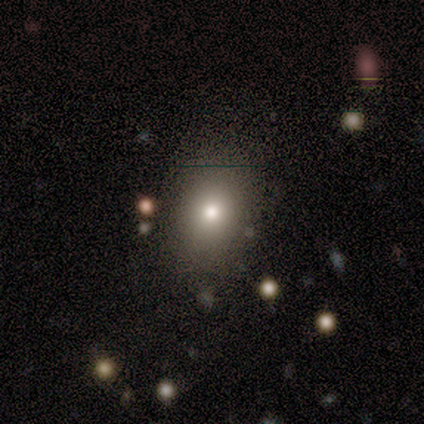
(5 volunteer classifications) Smooth or featured?
  - smooth: 80% *
  - star or artifact: 20%
  - featured or disk: 0%
How rounded?
  - round: 50% * (tied)
  - in between: 50% * (tied)
  - cigar-shaped: 0%
Merging?
  - none: 100% *
  - minor disturbance: 0%
  - major disturbance: 0%
  - merger: 0%